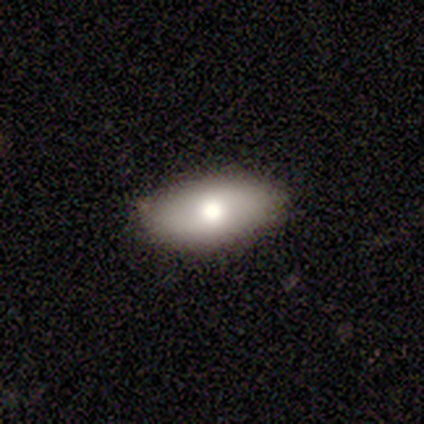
Overall: smooth (100%). How rounded: in between (100%). Merging: none (100%).